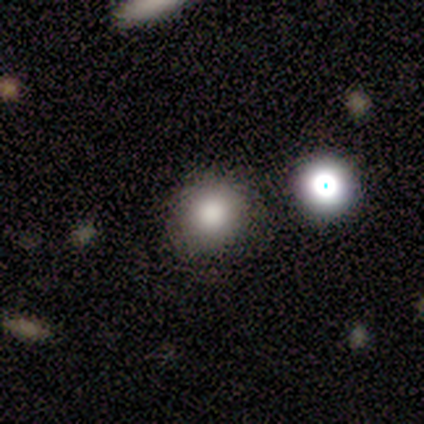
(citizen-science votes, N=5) smooth 40% (tied), featured or disk 40% (tied), star or artifact 20%. Down the decision tree: how rounded — round (100%); merging — none (50%, tied with minor disturbance).